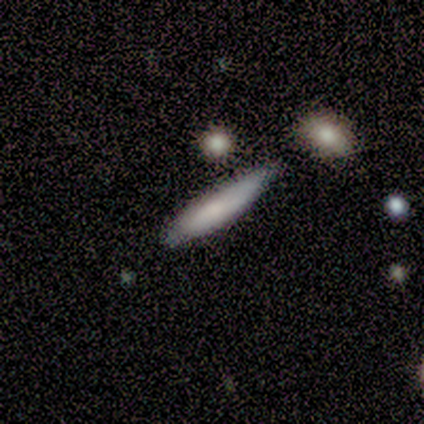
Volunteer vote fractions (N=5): Q: Smooth or featured?
A: smooth (80%); runner-up: featured or disk (20%)
Q: How rounded?
A: in between (75%); runner-up: cigar-shaped (25%)
Q: Merging?
A: minor disturbance (80%); runner-up: major disturbance (20%)